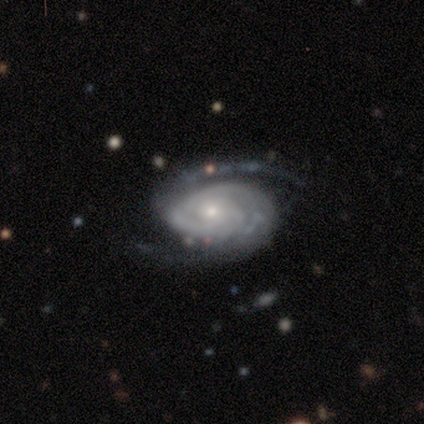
featured or disk 87%, star or artifact 9%, smooth 4%. Down the decision tree: edge-on disk — no (95%); bar — no (70%); spiral arms — yes (95%); spiral arm count — 2 (71%); spiral winding — medium (51%); bulge size — small (68%); merging — none (68%).